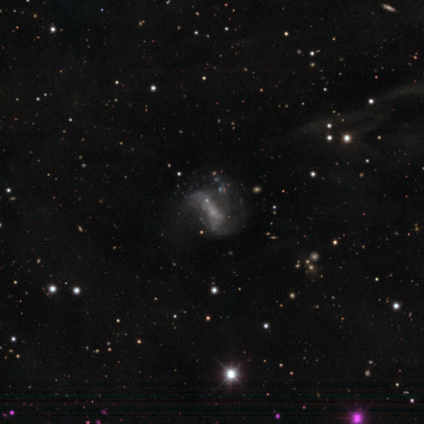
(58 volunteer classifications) featured or disk 66%, smooth 19%, star or artifact 16%. Down the decision tree: edge-on disk — no (100%); bar — no (61%); spiral arms — yes (58%); spiral arm count — 2 (73%); spiral winding — loose (50%); bulge size — none (53%); merging — none (39%).